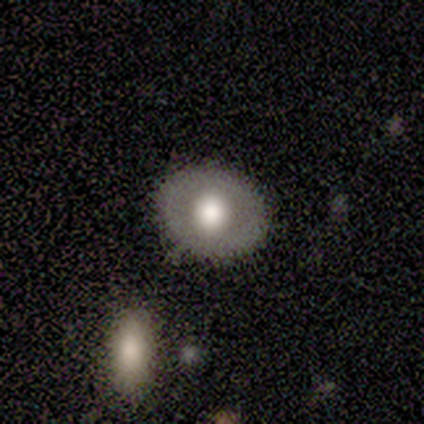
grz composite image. It shows a smooth galaxy with no disk features (40%, tied with featured or disk) that is in between round and cigar-shaped (100%). Merging: none (100%).